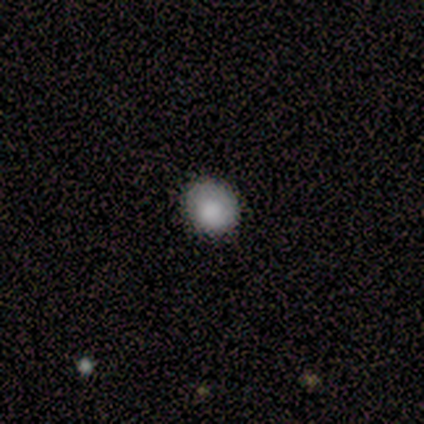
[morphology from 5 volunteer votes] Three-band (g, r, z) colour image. It shows a smooth galaxy with no disk features (80%) that is round (100%). Merging: none (100%).